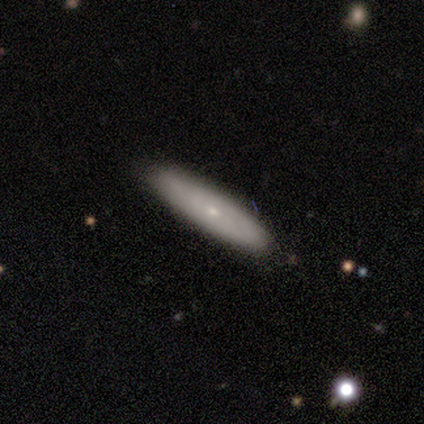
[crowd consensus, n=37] Morphology: type=smooth (57%); roundness=in between (52%); merging=none (62%).